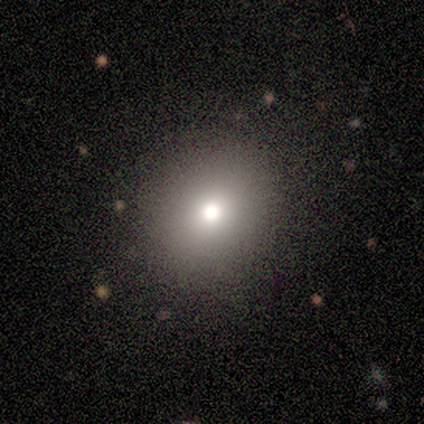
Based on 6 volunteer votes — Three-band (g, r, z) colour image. It shows a smooth galaxy with no disk features (67%) that is round (75%). Merging: none (100%).